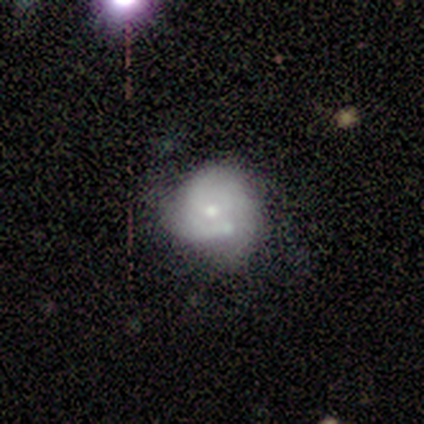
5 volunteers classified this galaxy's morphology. Smooth or featured? smooth (40%, tied with featured or disk)
How rounded? round (50%, tied with in between)
Merging? merger (75%)